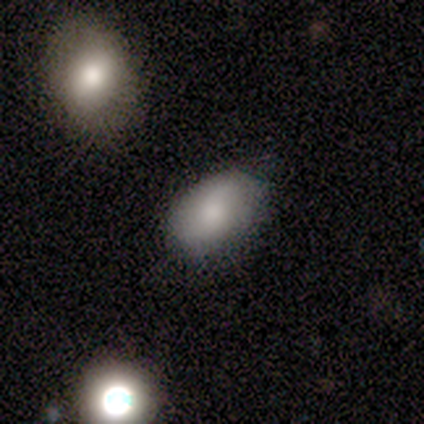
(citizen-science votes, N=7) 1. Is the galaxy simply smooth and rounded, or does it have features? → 57% smooth, 43% featured or disk, 0% star or artifact.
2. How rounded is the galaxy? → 100% in between, 0% round, 0% cigar-shaped.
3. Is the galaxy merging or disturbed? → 86% none, 14% minor disturbance, 0% major disturbance, 0% merger.